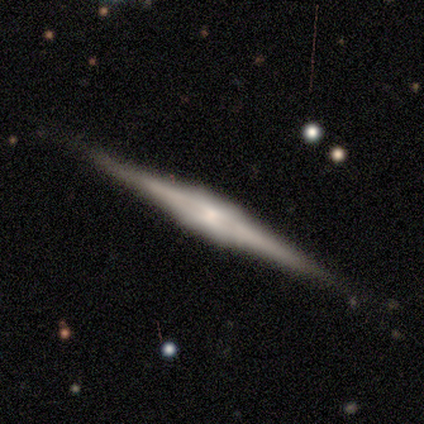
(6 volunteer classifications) Volunteers were most divided on "merging": none: 83%, minor disturbance: 17%, major disturbance: 0%, merger: 0%. More confident: smooth or featured — featured or disk (100%); edge-on disk — yes (100%); edge-on bulge — boxy (100%).